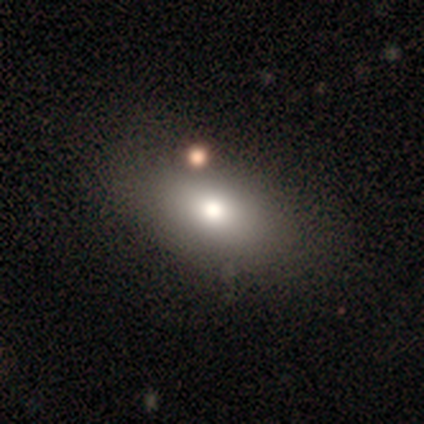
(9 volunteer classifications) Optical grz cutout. It shows a smooth galaxy with no disk features (78%) that is in between round and cigar-shaped (57%). Merging: none (89%).